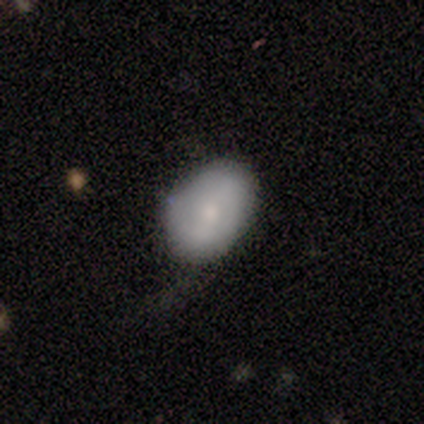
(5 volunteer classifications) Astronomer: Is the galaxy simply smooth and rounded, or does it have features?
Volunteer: smooth — 80%.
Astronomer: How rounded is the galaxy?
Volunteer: in between — 100%.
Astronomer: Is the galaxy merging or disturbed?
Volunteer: none — 60% (runner-up: minor disturbance, 40%).